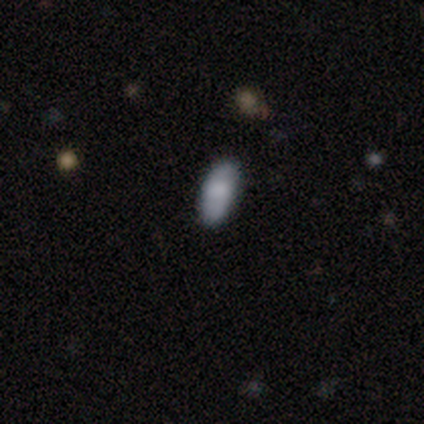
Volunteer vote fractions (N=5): Smooth or featured? 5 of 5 (100%) said smooth. How rounded? 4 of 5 (80%) said in between. Merging? 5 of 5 (100%) said none.